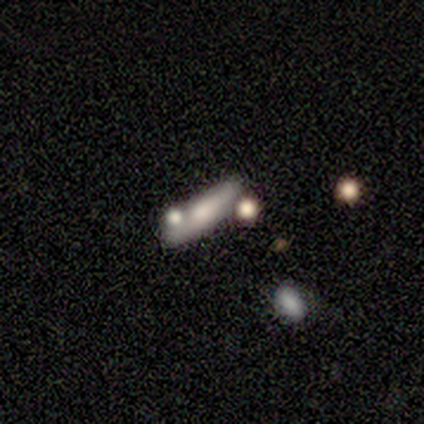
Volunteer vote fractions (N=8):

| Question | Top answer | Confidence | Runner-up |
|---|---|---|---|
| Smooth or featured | smooth | 50% | tied: featured or disk (50%) |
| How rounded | cigar-shaped | 75% | in between (25%) |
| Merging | none | 50% | major disturbance (25%) |